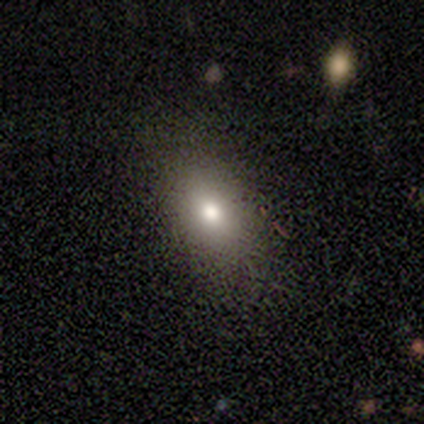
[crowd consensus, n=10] Smooth or featured: smooth — 100%
How rounded: in between — 90% (round — 10%)
Merging: none — 80% (minor disturbance — 10%)